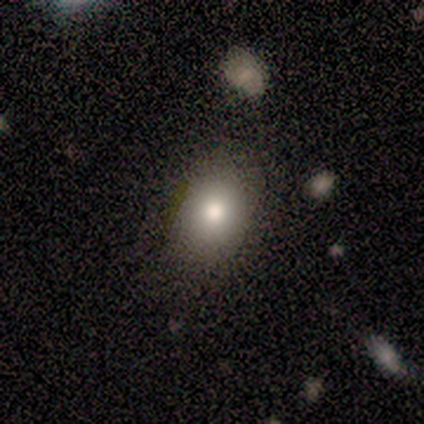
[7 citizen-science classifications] Smooth or featured: smooth — 71% (featured or disk — 29%)
How rounded: in between — 100%
Merging: none — 71% (minor disturbance — 29%)